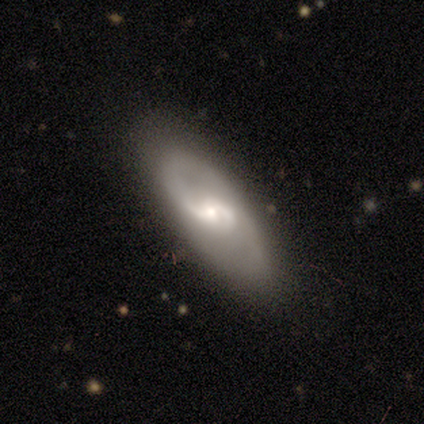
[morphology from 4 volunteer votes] Smooth or featured: featured or disk — 75% (smooth — 25%)
Edge-on disk: no — 100%
Bar: no — 67% (weak — 33%)
Spiral arms: yes — 100%
Spiral winding: tight — 67% (loose — 33%)
Spiral arm count: 2 — 100%
Bulge size: small — 67% (moderate — 33%)
Merging: none — 75% (minor disturbance — 25%)